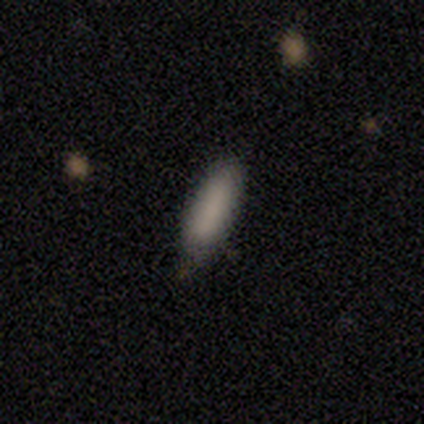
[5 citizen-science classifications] smooth-or-featured: smooth: 100% | featured or disk: 0% | star or artifact: 0%
  how-rounded: in between: 80% | cigar-shaped: 20% | round: 0%
  merging: none: 80% | minor disturbance: 20% | major disturbance: 0% | merger: 0%